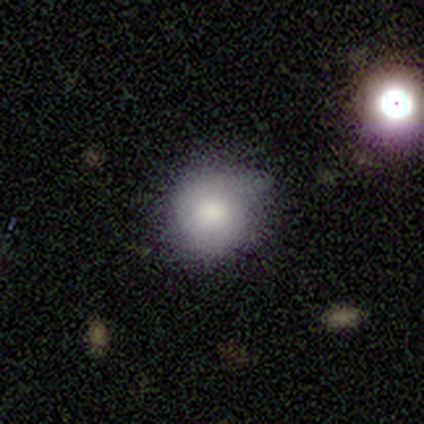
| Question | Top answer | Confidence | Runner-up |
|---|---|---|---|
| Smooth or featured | smooth | 83% | featured or disk (17%) |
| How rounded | round | 100% | — |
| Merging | none | 83% | minor disturbance (17%) |